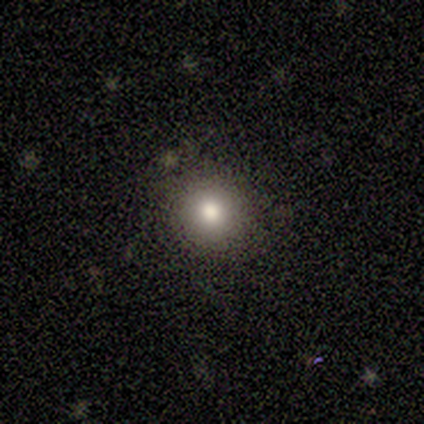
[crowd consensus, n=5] This is clearly a smooth galaxy (80%). How rounded: clearly round (100%). Merging: clearly none (100%).